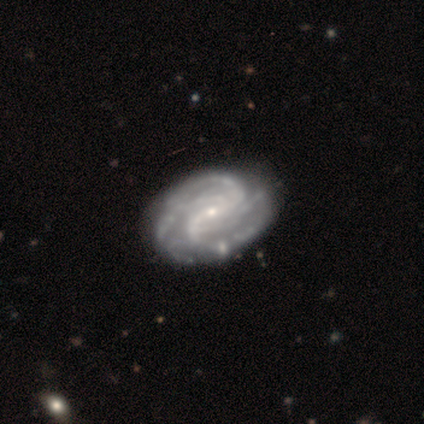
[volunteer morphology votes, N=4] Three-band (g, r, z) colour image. It shows a featured or disk galaxy (100%) with a weak bar (50%), 4 (75%) tight (50%, tied with medium) spiral arms (100%) and a small central bulge (100%). Merging: none (50%).